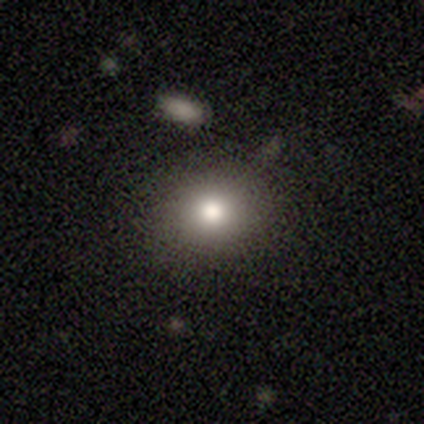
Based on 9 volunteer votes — Volunteers were most divided on "merging": none: 71%, minor disturbance: 29%, major disturbance: 0%, merger: 0%. More confident: how rounded — round (83%); smooth or featured — smooth (67%).